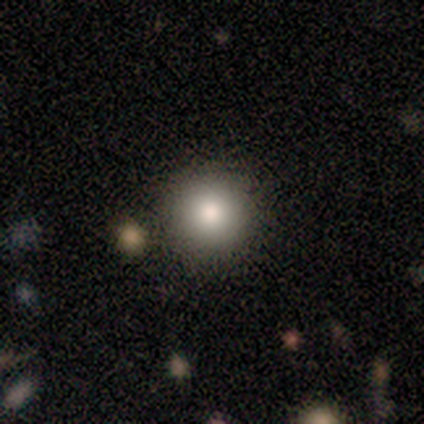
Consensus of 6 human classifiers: Smooth or featured?
  - smooth: 83% *
  - star or artifact: 17%
  - featured or disk: 0%
How rounded?
  - round: 100% *
  - in between: 0%
  - cigar-shaped: 0%
Merging?
  - none: 100% *
  - minor disturbance: 0%
  - major disturbance: 0%
  - merger: 0%